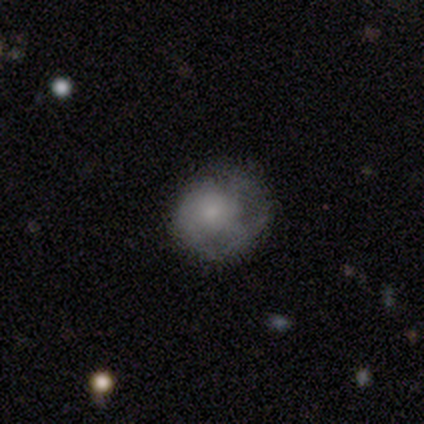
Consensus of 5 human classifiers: Morphology: type=smooth (40%, tied with featured or disk); roundness=round (100%); merging=none (50%, tied with major disturbance).